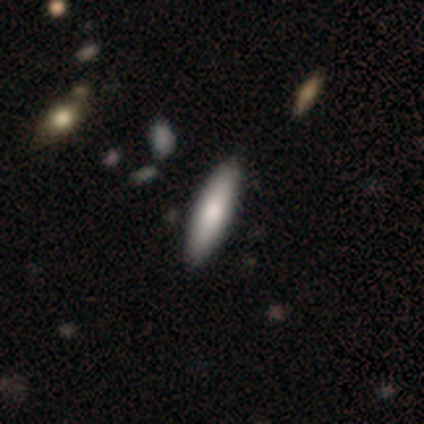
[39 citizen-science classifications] Smooth or featured: smooth — 67% (featured or disk — 23%)
How rounded: cigar-shaped — 85% (in between — 15%)
Merging: none — 94% (minor disturbance — 6%)